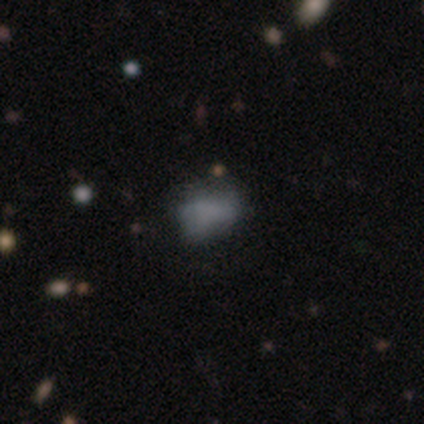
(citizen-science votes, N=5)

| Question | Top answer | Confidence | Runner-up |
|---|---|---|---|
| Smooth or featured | smooth | 60% | featured or disk (40%) |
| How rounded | in between | 100% | — |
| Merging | none | 40% | tied: minor disturbance (40%) |